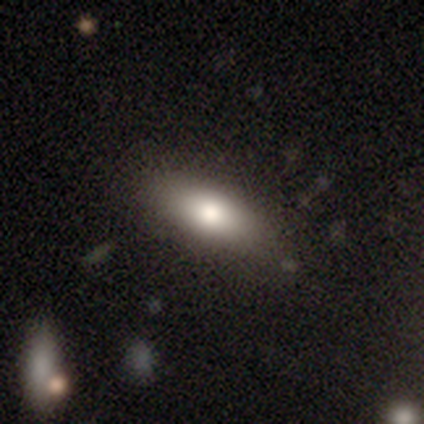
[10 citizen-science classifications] Smooth or featured?
  - smooth: 90% *
  - star or artifact: 10%
  - featured or disk: 0%
How rounded?
  - in between: 89% *
  - cigar-shaped: 11%
  - round: 0%
Merging?
  - none: 89% *
  - minor disturbance: 11%
  - major disturbance: 0%
  - merger: 0%